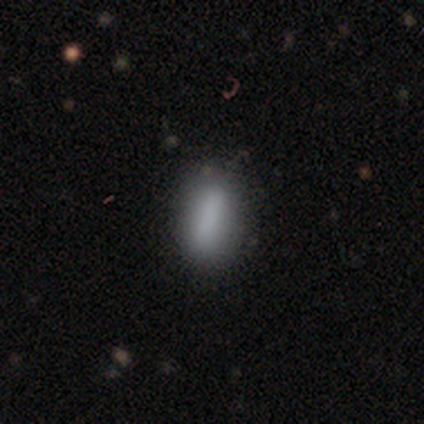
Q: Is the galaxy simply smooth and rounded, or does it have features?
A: smooth — 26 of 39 (67%).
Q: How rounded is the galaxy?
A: in between — 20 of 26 (77%).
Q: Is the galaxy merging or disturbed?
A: none — 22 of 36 (61%).